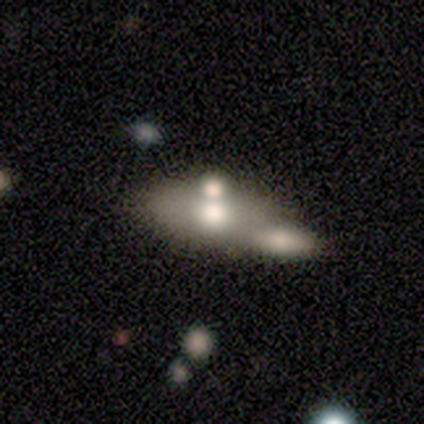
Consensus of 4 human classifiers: A smooth galaxy with no disk features (50%, tied with featured or disk) that is in between round and cigar-shaped (100%). Merging: merger (75%).